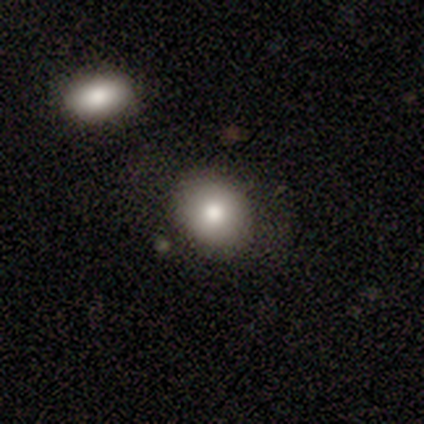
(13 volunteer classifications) smooth_or_featured: smooth (p=0.77) [alt: featured or disk p=0.15]
how_rounded: round (p=0.60) [alt: in between p=0.30]
merging: none (p=0.83) [alt: minor disturbance p=0.08]